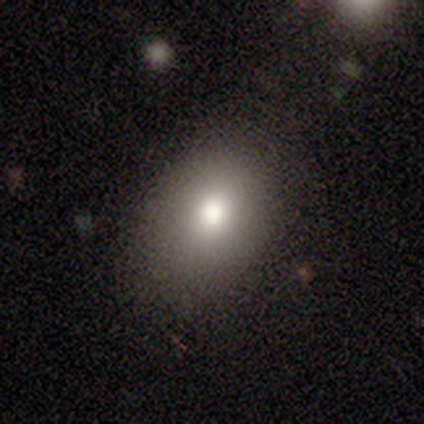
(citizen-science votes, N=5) A smooth galaxy with no disk features (100%) that is in between round and cigar-shaped (60%). Merging: none (100%).